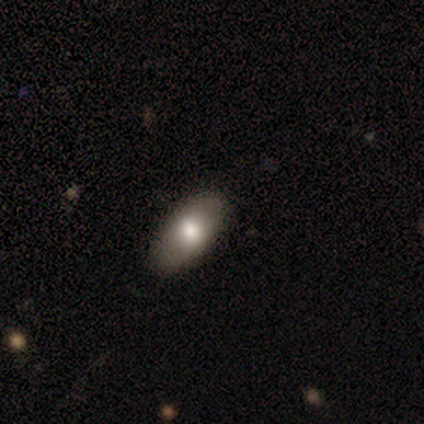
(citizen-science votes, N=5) Smooth or featured?
  - smooth: 60% *
  - featured or disk: 40%
  - star or artifact: 0%
How rounded?
  - in between: 100% *
  - round: 0%
  - cigar-shaped: 0%
Merging?
  - none: 80% *
  - minor disturbance: 20%
  - major disturbance: 0%
  - merger: 0%